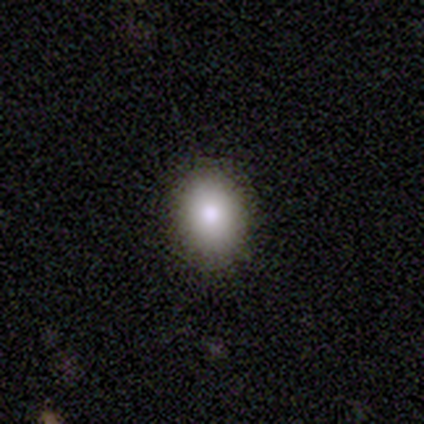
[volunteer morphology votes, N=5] Overall: smooth (80%). How rounded: in between (75%). Merging: none (80%).